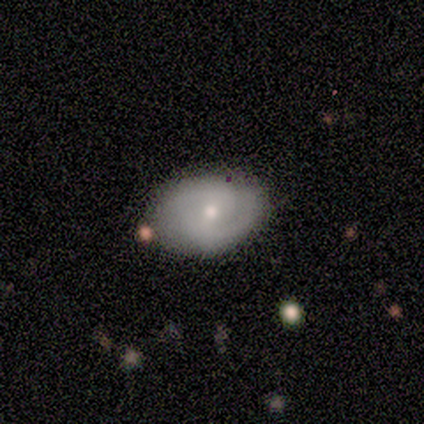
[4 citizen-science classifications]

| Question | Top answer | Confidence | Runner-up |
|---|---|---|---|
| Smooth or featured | featured or disk | 50% | smooth (25%) |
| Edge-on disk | no | 100% | — |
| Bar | weak | 100% | — |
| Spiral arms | yes | 100% | — |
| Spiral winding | tight | 50% | tied: medium (50%) |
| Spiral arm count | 2 | 100% | — |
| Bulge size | moderate | 50% | tied: small (50%) |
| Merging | minor disturbance | 67% | none (33%) |